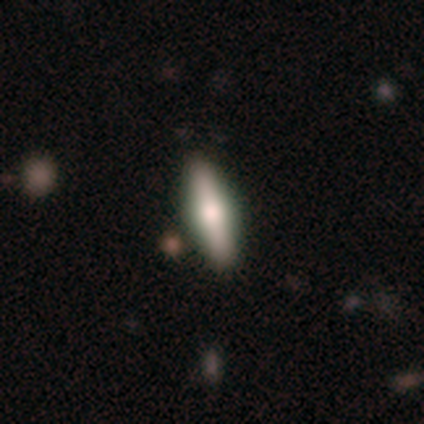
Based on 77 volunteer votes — Overall: smooth (60%; featured or disk 39%). How rounded: cigar-shaped (65%; in between 35%). Merging: none (46%).